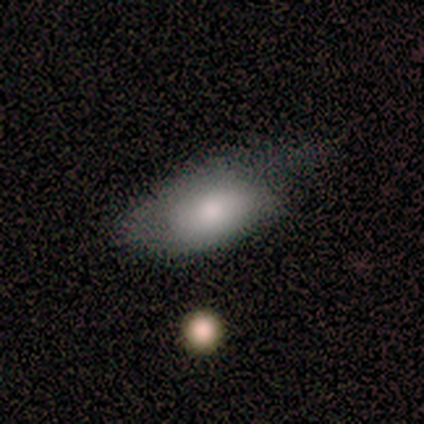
A smooth galaxy with no disk features (80%) that is in between round and cigar-shaped (75%). Merging: minor disturbance (80%).